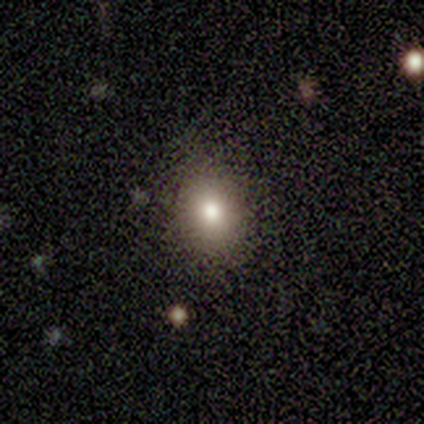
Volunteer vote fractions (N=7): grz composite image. It shows a smooth galaxy with no disk features (86%) that is round (67%). Merging: none (83%).